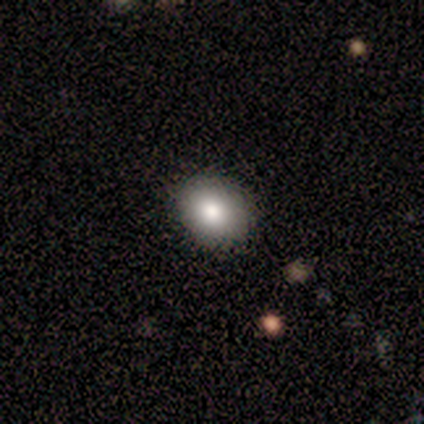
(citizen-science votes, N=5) This appears to be a smooth galaxy with no disk features (80%) that is round (50%, tied with in between). Merging: none (100%).